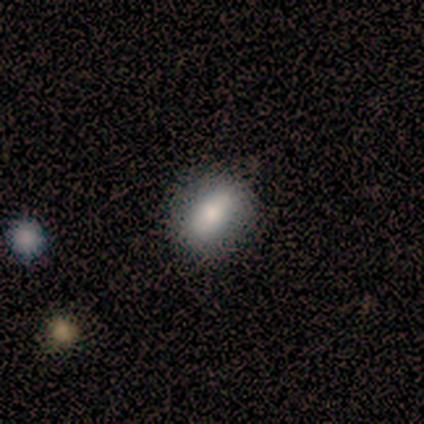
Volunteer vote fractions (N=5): A smooth galaxy with no disk features (80%) that is round (50%, tied with in between).

Vote fractions:
- Smooth or featured? smooth: 80% / featured or disk: 20% / star or artifact: 0%
- How rounded? round: 50% (tied) / in between: 50% (tied) / cigar-shaped: 0%
- Merging? none: 100% / minor disturbance: 0% / major disturbance: 0% / merger: 0%